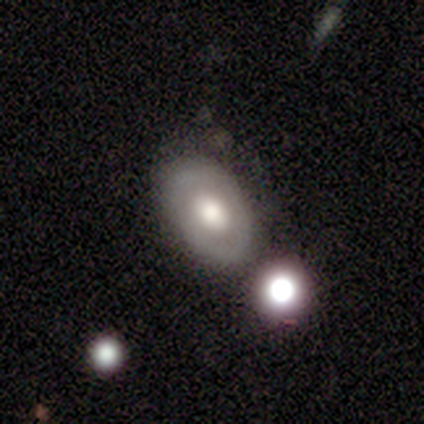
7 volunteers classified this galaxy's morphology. Overall: featured or disk (71%). Edge-on disk: no (100%). Bar: no (100%). Spiral arms: no (80%). Bulge size: moderate (100%). Merging: none (57%; merger 29%).